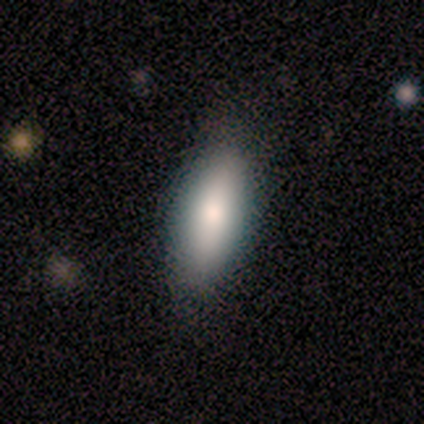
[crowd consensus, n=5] smooth-or-featured: smooth: 80% | featured or disk: 20% | star or artifact: 0%
  how-rounded: in between: 75% | cigar-shaped: 25% | round: 0%
  merging: none: 80% | major disturbance: 20% | minor disturbance: 0% | merger: 0%